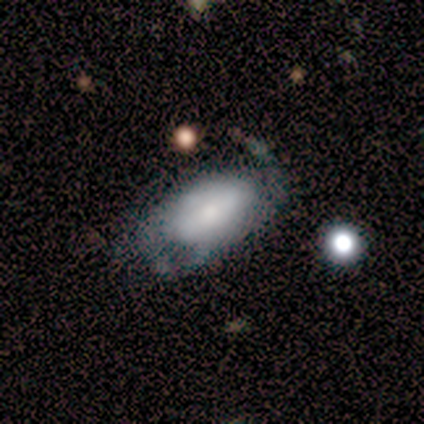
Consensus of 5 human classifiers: Smooth or featured?
  - featured or disk: 60% *
  - smooth: 40%
  - star or artifact: 0%
Edge-on disk?
  - no: 100% *
  - yes: 0%
Bar?
  - no: 67% *
  - weak: 33%
  - strong: 0%
Spiral arms?
  - yes: 100% *
  - no: 0%
Spiral winding?
  - tight: 67% *
  - loose: 33%
  - medium: 0%
Spiral arm count?
  - 1: 67% *
  - 2: 33%
  - 3: 0%
  - 4: 0%
  - more than 4: 0%
  - can't tell: 0%
Bulge size?
  - small: 67% *
  - moderate: 33%
  - dominant: 0%
  - large: 0%
  - none: 0%
Merging?
  - none: 80% *
  - minor disturbance: 20%
  - major disturbance: 0%
  - merger: 0%